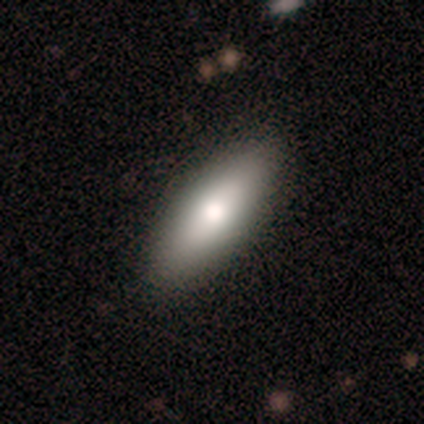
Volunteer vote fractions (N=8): Smooth or featured?
  - smooth: 88% *
  - featured or disk: 12%
  - star or artifact: 0%
How rounded?
  - in between: 71% *
  - cigar-shaped: 29%
  - round: 0%
Merging?
  - none: 88% *
  - minor disturbance: 12%
  - major disturbance: 0%
  - merger: 0%